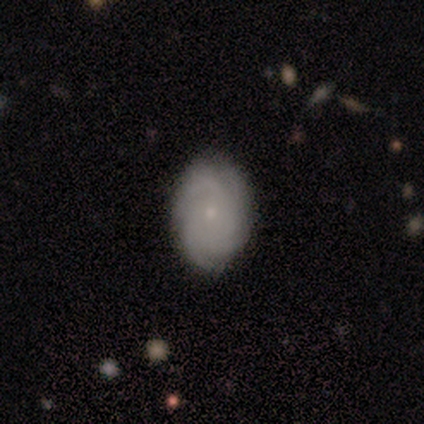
featured or disk 82%, smooth 13%, star or artifact 5%. Down the decision tree: edge-on disk — no (97%); bar — no (93%); spiral arms — yes (100%); spiral arm count — 4 (43%, tied with can't tell); spiral winding — tight (60%); bulge size — small (87%); merging — none (72%).